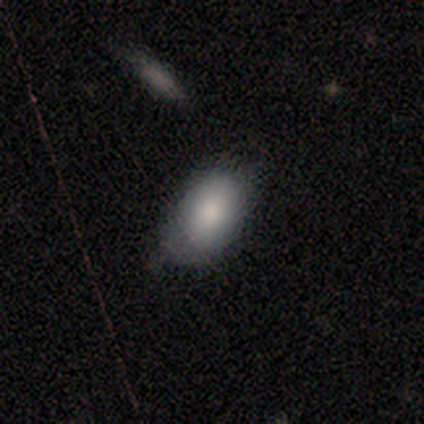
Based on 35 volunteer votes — Morphology: type=smooth (83%); roundness=in between (97%); merging=none (47%).